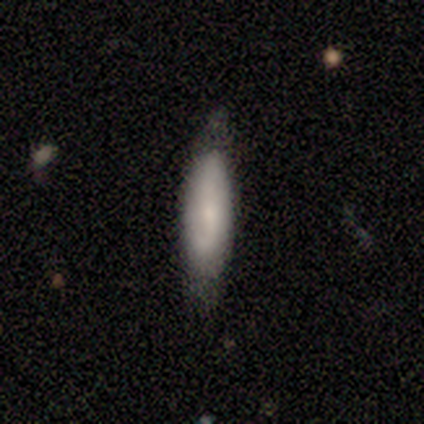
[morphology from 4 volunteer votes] smooth 75%, featured or disk 25%, star or artifact 0%. Down the decision tree: how rounded — cigar-shaped (67%); merging — none (50%, tied with minor disturbance).